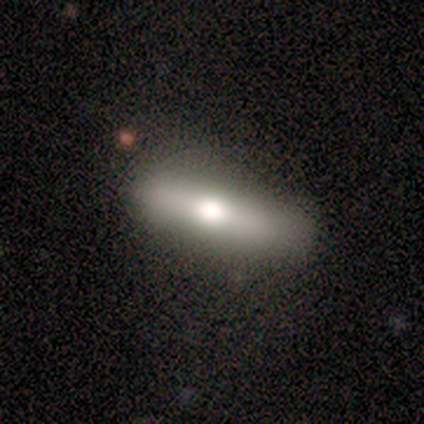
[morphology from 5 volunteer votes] Q: Smooth or featured?
A: smooth (60%); runner-up: featured or disk (20%)
Q: How rounded?
A: cigar-shaped (100%)
Q: Merging?
A: none (100%)